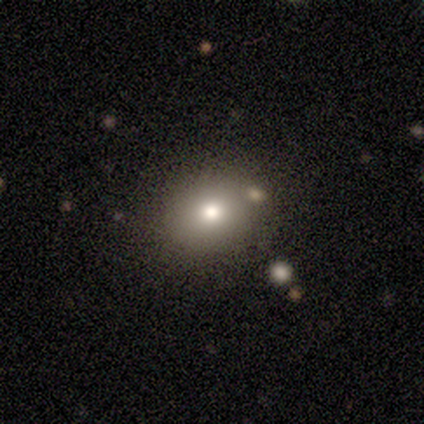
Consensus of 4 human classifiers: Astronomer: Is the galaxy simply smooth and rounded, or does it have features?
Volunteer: smooth — 50%.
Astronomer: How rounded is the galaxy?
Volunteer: round — 50%, tied with in between at 50%.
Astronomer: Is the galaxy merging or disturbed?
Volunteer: none — 100%.